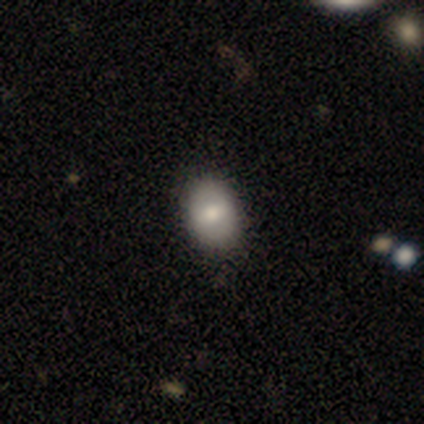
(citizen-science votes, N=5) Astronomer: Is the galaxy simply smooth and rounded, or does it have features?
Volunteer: smooth — 60% (runner-up: featured or disk, 40%).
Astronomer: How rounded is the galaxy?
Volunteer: in between — 100%.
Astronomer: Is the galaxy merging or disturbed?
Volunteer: none — 100%.